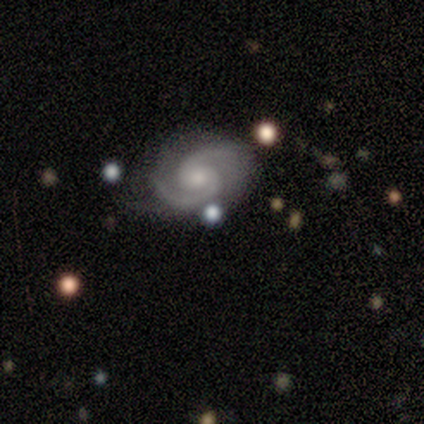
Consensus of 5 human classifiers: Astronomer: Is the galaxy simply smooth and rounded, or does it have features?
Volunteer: featured or disk — 100%.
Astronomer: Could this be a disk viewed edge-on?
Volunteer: no — 100%.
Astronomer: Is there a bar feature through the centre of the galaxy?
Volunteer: weak — 40%, tied with no at 40%.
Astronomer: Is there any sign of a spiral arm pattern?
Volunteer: yes — 100%.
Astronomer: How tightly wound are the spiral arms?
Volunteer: tight — 60% (runner-up: medium, 40%).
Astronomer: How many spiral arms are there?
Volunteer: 2 — 100%.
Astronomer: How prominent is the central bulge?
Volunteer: small — 60%.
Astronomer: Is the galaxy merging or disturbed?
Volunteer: none — 80%.